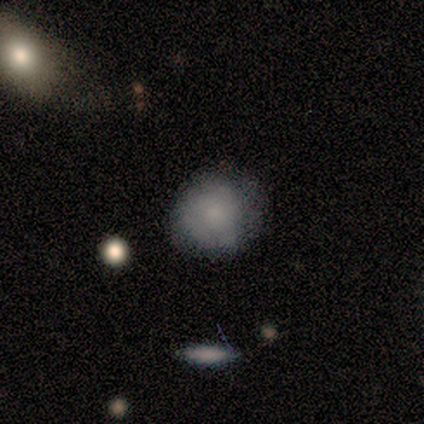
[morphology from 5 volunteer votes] Smooth or featured?
  - smooth: 80% *
  - featured or disk: 20%
  - star or artifact: 0%
How rounded?
  - round: 100% *
  - in between: 0%
  - cigar-shaped: 0%
Merging?
  - none: 100% *
  - minor disturbance: 0%
  - major disturbance: 0%
  - merger: 0%